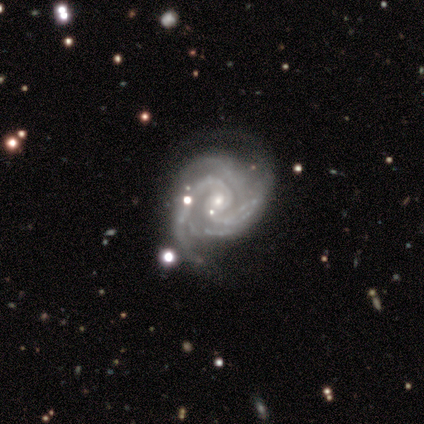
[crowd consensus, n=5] This is clearly a featured or disk galaxy (100%). It is clearly not viewed edge-on (100%). Bar: clearly no (100%). Spiral arm pattern: clearly yes (100%). Spiral arm count: marginally 3 (40%, tied with 4). Spiral winding: clearly tight (80%). Central bulge: clearly small (100%). Merging: likely none (60%).